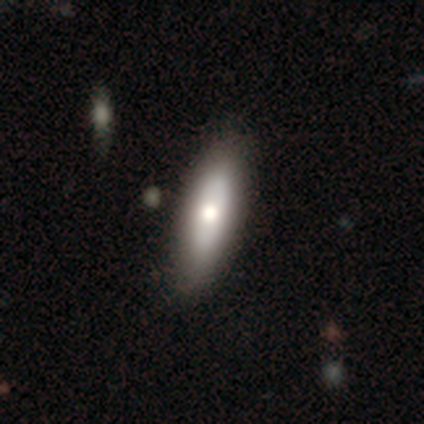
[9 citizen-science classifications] Volunteers were most divided on "smooth or featured": featured or disk: 56%, smooth: 33%, star or artifact: 11%. More confident: spiral arms — no (100%); merging — none (100%); edge-on disk — no (80%); bar — no (75%); bulge size — moderate (50%).